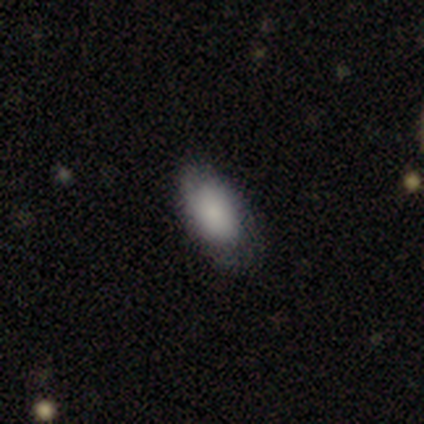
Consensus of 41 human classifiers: A smooth galaxy with no disk features (71%) that is in between round and cigar-shaped (93%). Merging: none (64%).